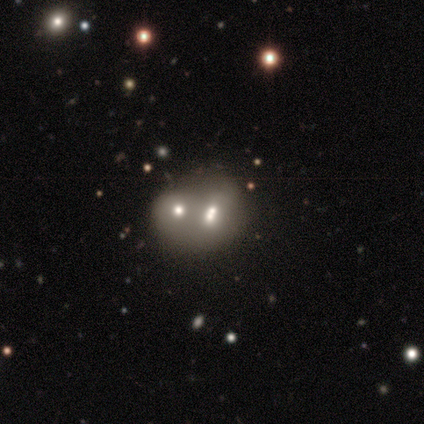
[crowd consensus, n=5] Morphology: type=smooth (80%); roundness=round (75%); merging=none (40%, tied with merger).